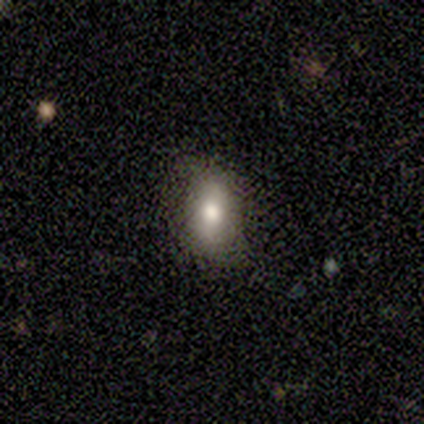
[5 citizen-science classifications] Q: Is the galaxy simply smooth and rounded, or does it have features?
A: smooth — 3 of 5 (60%).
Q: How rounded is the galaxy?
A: in between — 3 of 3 (100%).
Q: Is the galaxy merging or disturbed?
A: none — 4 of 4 (100%).